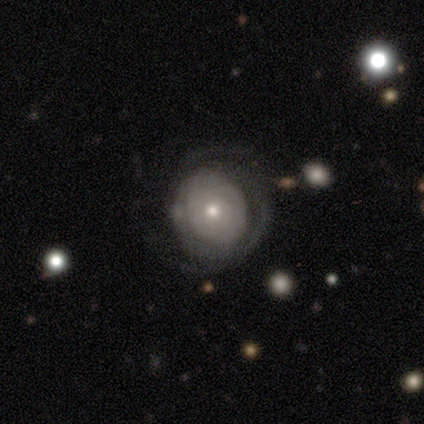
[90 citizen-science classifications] smooth_or_featured: featured or disk (p=0.72) [alt: smooth p=0.21]
disk_edge_on: no (p=0.95) [alt: yes p=0.05]
bar: no (p=0.81) [alt: weak p=0.16]
has_spiral_arms: yes (p=0.85) [alt: no p=0.15]
spiral_winding: tight (p=0.81) [alt: medium p=0.11]
spiral_arm_count: can't tell (p=0.42) [alt: 3 p=0.28]
bulge_size: small (p=0.58) [alt: moderate p=0.39]
merging: none (p=0.60) [alt: minor disturbance p=0.21]